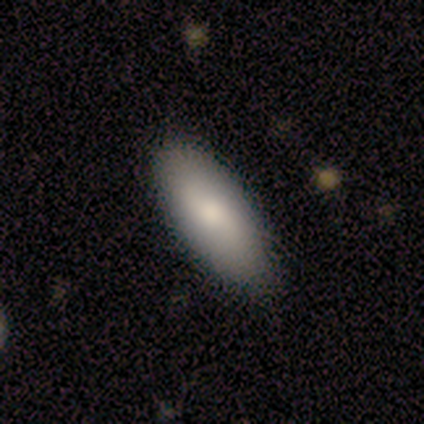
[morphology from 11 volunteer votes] A smooth galaxy with no disk features (64%) that is in between round and cigar-shaped (100%). Merging: none (100%).